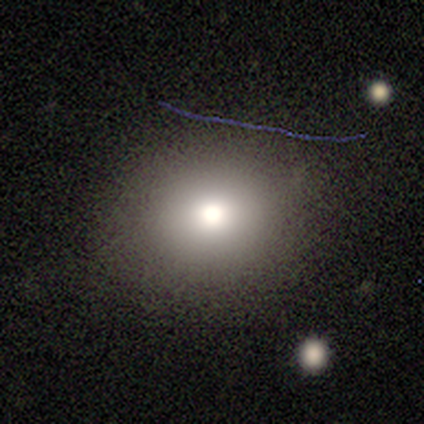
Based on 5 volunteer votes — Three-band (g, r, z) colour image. It shows a star or artifact, not a galaxy (60%).